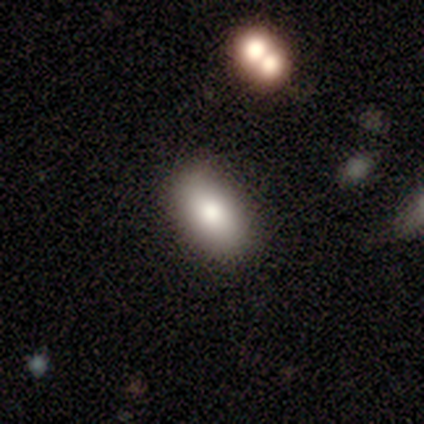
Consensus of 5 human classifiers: Smooth or featured? smooth (100%)
How rounded? in between (100%)
Merging? none (80%)